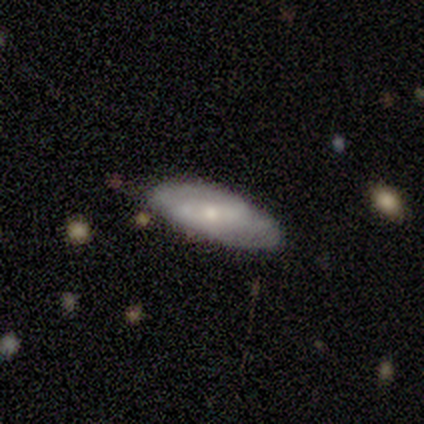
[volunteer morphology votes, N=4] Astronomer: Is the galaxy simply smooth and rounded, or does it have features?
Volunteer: featured or disk — 75%.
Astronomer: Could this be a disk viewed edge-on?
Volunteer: no — 100%.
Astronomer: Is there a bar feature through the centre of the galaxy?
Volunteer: no — 67%.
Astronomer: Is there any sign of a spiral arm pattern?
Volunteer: yes — 100%.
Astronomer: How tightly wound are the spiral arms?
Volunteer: medium — 67%.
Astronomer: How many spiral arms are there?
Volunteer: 2 — 67%.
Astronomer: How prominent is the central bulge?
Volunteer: moderate — 67%.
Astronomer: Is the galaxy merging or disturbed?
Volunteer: minor disturbance — 50%.